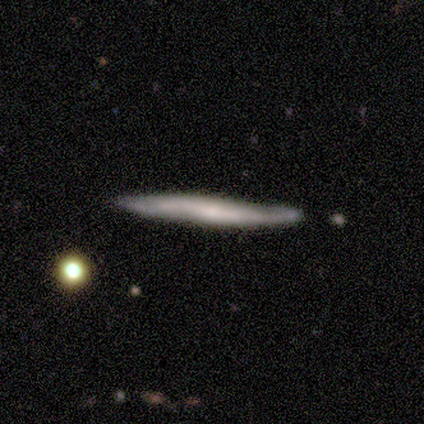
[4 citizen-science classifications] Volunteers were most divided on "edge-on bulge" (2-way tie): none: 50%, rounded: 50%, boxy: 0%. More confident: merging — none (100%); smooth or featured — featured or disk (75%); edge-on disk — yes (67%).